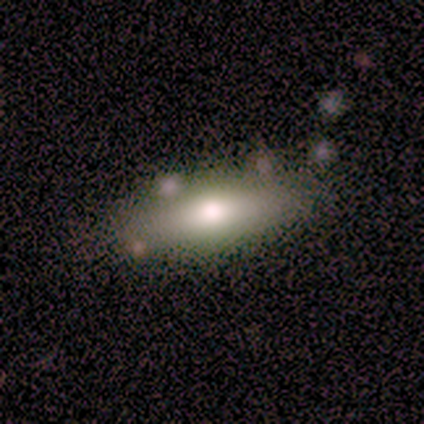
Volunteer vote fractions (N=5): Morphology: type=smooth (60%); roundness=in between (67%); merging=none (80%).